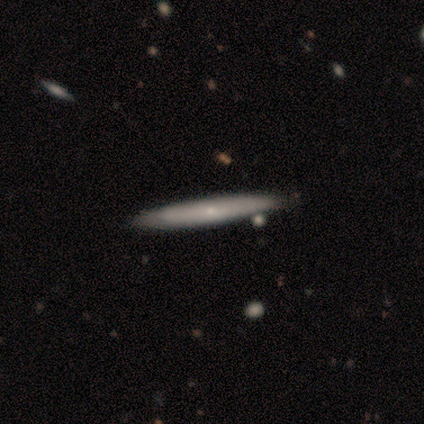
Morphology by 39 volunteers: Smooth or featured: smooth — 56% (featured or disk — 36%)
How rounded: cigar-shaped — 100%
Merging: none — 83% (merger — 14%)